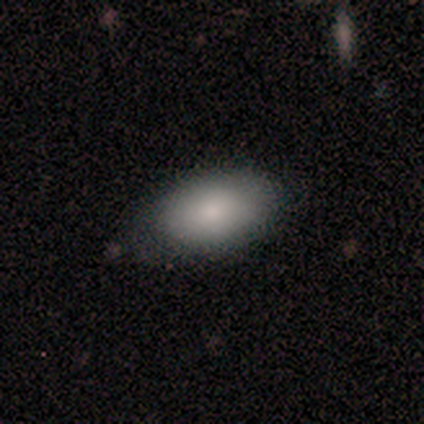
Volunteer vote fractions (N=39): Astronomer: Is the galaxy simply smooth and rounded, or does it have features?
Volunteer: smooth — 74%.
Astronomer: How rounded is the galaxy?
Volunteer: in between — 97%.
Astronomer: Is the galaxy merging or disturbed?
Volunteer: none — 68%.